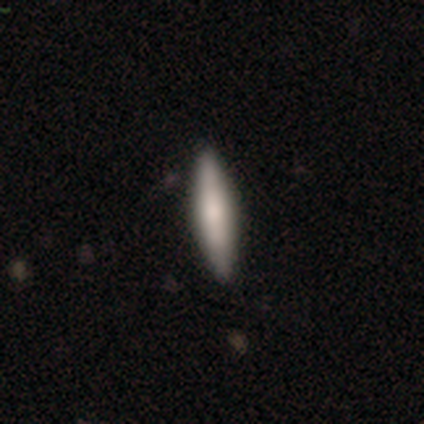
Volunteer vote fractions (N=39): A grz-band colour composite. It shows a smooth galaxy with no disk features (54%) that is cigar-shaped (95%). Merging: none (91%).